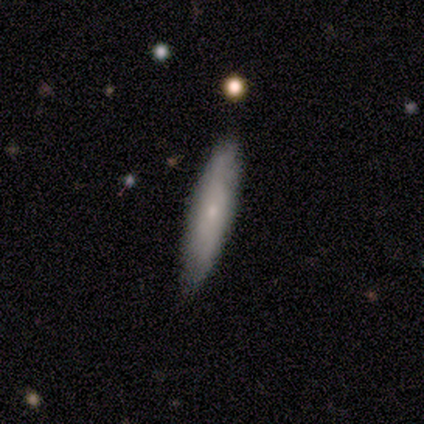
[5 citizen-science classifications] Q: Smooth or featured?
A: smooth (80%); runner-up: star or artifact (20%)
Q: How rounded?
A: cigar-shaped (100%)
Q: Merging?
A: none (100%)